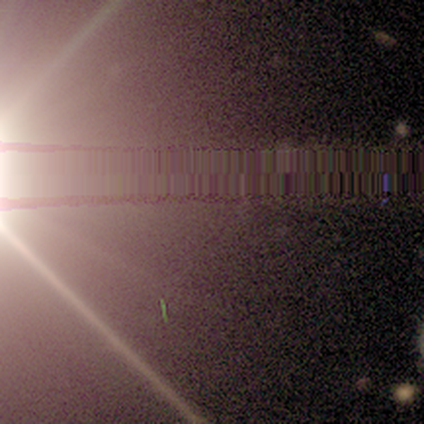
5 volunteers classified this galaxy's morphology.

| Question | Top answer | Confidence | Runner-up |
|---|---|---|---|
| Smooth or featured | star or artifact | 100% | — |